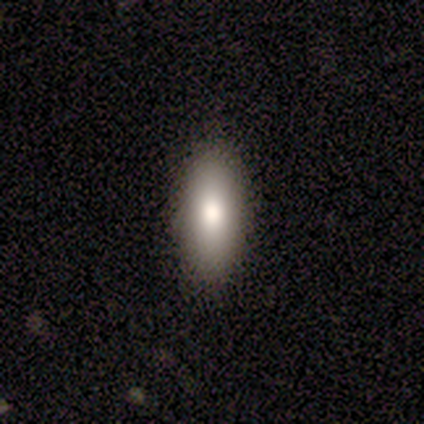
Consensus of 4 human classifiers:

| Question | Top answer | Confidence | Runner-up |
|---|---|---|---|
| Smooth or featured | smooth | 100% | — |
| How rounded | in between | 100% | — |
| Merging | none | 50% | tied: minor disturbance (50%) |